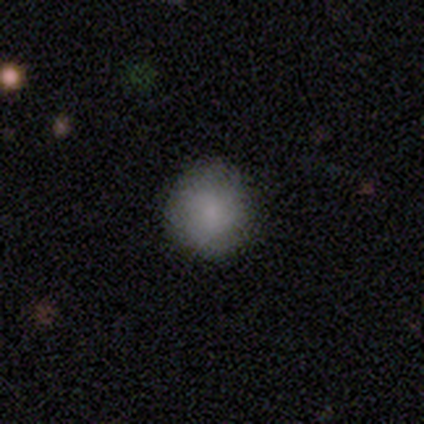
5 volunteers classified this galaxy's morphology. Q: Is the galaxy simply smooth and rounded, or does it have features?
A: smooth — 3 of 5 (60%).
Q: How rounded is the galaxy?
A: round — 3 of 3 (100%).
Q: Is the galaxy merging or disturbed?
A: none — 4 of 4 (100%).